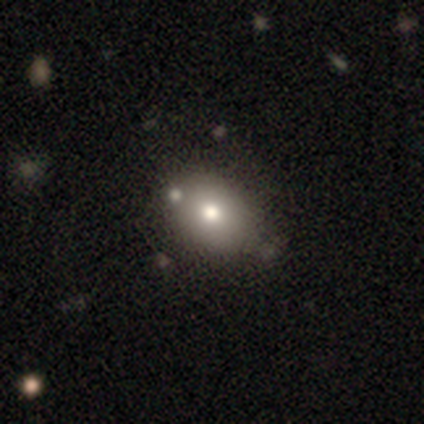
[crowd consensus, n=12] smooth 50%, featured or disk 25%, star or artifact 25%. Down the decision tree: how rounded — in between (83%); merging — none (78%).